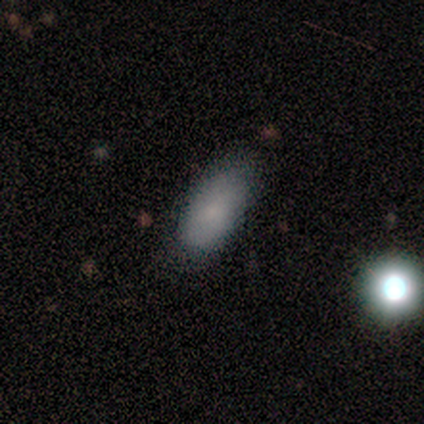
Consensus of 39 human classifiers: smooth_or_featured: smooth (p=0.82) [alt: featured or disk p=0.13]
how_rounded: in between (p=0.88) [alt: cigar-shaped p=0.09]
merging: none (p=0.70) [alt: minor disturbance p=0.24]